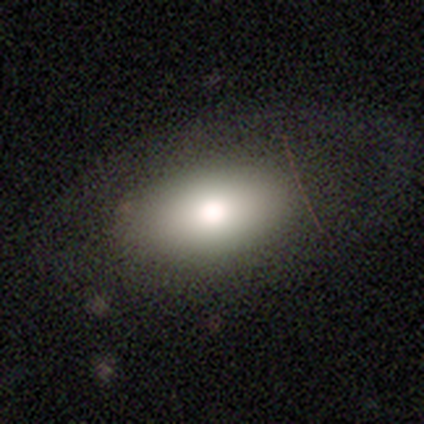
Q: Smooth or featured?
A: smooth (85%); runner-up: featured or disk (15%)
Q: How rounded?
A: in between (100%)
Q: Merging?
A: none (92%); runner-up: minor disturbance (8%)